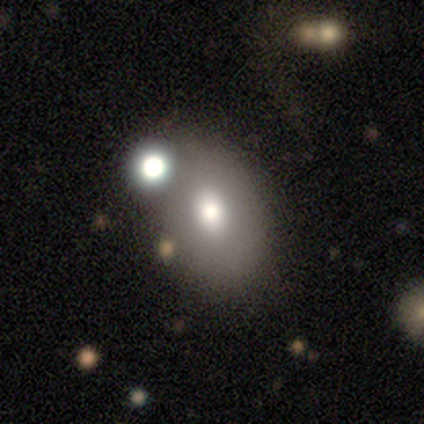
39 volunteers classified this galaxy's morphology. Smooth or featured? smooth (74%)
How rounded? in between (69%)
Merging? none (49%)